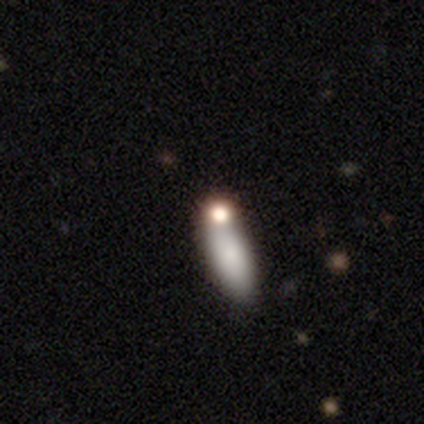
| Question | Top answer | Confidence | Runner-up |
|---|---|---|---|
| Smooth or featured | smooth | 80% | featured or disk (20%) |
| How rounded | in between | 75% | cigar-shaped (25%) |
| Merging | none | 40% | tied: merger (40%) |